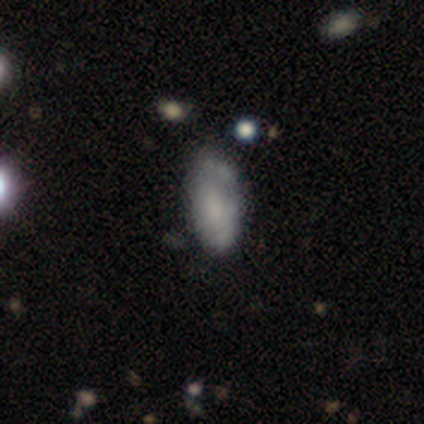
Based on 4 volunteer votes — Smooth or featured? 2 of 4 (50%, tied with featured or disk) said smooth. How rounded? 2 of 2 (100%) said in between. Merging? 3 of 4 (75%) said none.